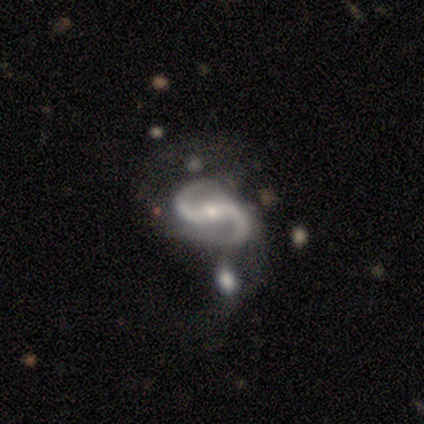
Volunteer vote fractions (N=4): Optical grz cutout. It shows a featured or disk galaxy (100%) with a strong bar (75%), 2 (100%) medium (75%) spiral arms (100%) and a moderate central bulge (75%). Merging: none (25%, tied with minor disturbance, major disturbance and merger).